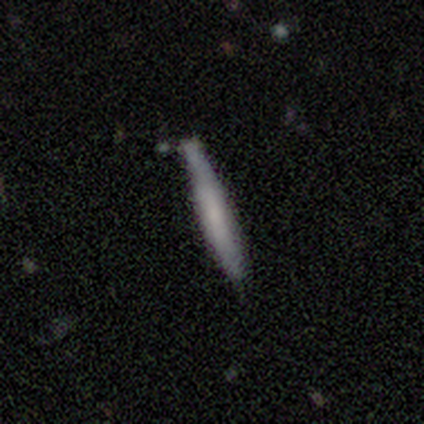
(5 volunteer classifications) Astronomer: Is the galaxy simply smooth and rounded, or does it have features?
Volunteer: smooth — 60% (runner-up: featured or disk, 40%).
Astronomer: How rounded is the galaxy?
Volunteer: cigar-shaped — 100%.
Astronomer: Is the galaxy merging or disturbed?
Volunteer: none — 100%.